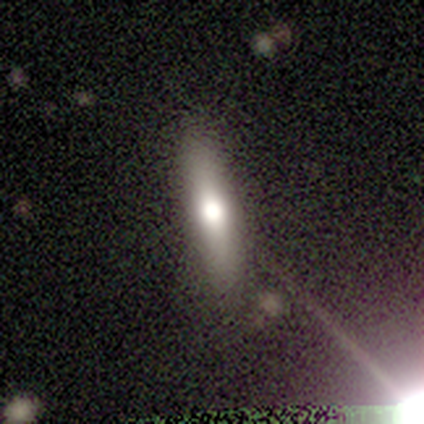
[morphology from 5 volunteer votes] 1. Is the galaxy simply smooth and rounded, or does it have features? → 60% featured or disk, 20% smooth, 20% star or artifact.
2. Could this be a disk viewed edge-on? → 100% yes, 0% no.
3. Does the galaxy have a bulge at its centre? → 100% rounded, 0% boxy, 0% none.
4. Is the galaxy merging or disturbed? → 50% none (tied), 50% minor disturbance (tied), 0% major disturbance, 0% merger.